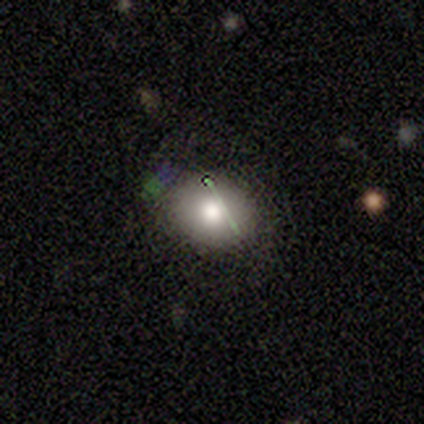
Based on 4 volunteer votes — Morphology: type=smooth (75%); roundness=in between (67%); merging=none (100%).